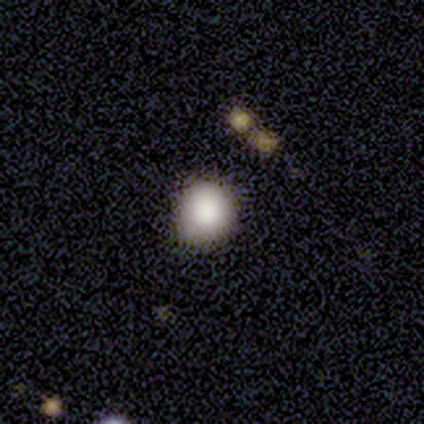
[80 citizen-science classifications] Overall: smooth (82%). How rounded: round (89%). Merging: none (41%; minor disturbance 4%).